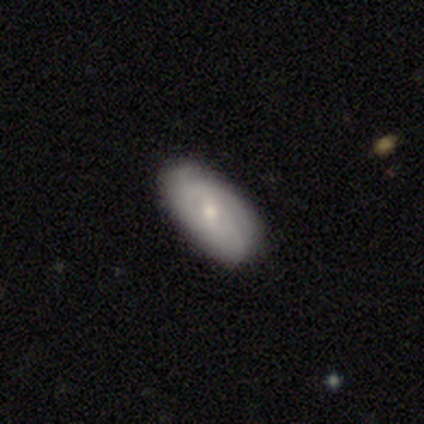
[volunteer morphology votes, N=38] Volunteers were most divided on "smooth or featured" (2-way tie): smooth: 50%, featured or disk: 50%, star or artifact: 0%. More confident: how rounded — in between (100%); merging — none (89%).